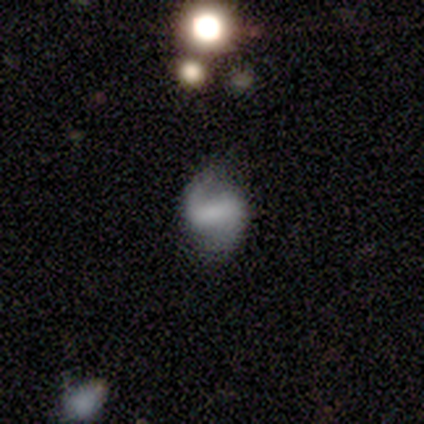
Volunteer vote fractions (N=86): featured or disk 71%, smooth 19%, star or artifact 10%. Down the decision tree: edge-on disk — no (98%); bar — strong (52%); spiral arms — yes (88%); spiral arm count — 2 (89%); spiral winding — loose (58%); bulge size — none (60%); merging — none (70%).